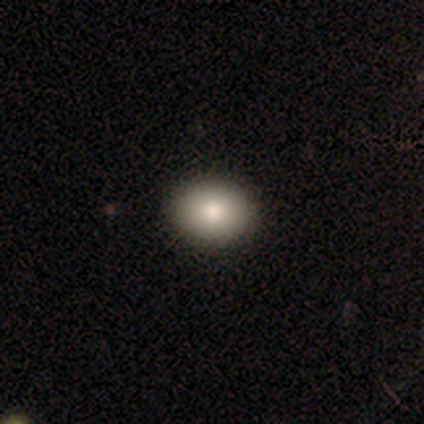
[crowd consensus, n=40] A smooth galaxy with no disk features (88%) that is round (51%).

Vote fractions:
- Smooth or featured? smooth: 88% / featured or disk: 10% / star or artifact: 2%
- How rounded? round: 51% / in between: 49% / cigar-shaped: 0%
- Merging? none: 69% / minor disturbance: 3% / major disturbance: 0% / merger: 0%